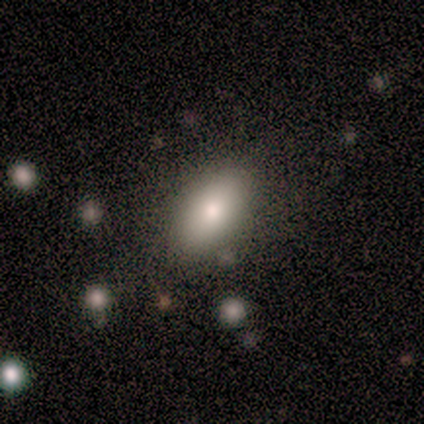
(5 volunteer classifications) This is likely a smooth galaxy (60%). How rounded: clearly in between (100%). Merging: likely none (75%).